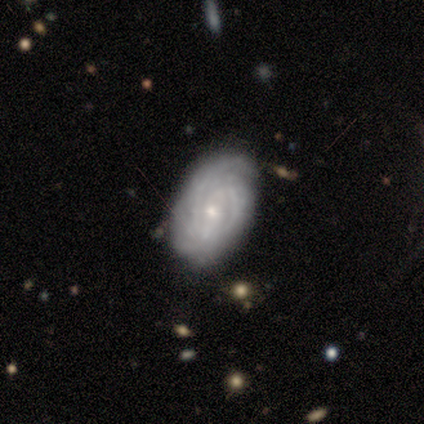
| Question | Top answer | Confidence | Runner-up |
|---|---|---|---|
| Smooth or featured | featured or disk | 100% | — |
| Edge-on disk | no | 100% | — |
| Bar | weak | 75% | no (25%) |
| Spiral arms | yes | 100% | — |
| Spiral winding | tight | 100% | — |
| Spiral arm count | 2 | 50% | 4 (25%) |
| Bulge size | small | 75% | large (25%) |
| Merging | none | 75% | minor disturbance (25%) |